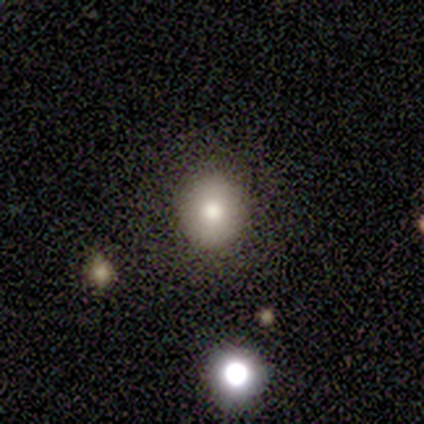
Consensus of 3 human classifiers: smooth_or_featured: smooth (p=1.00)
how_rounded: round (p=1.00)
merging: none (p=1.00)